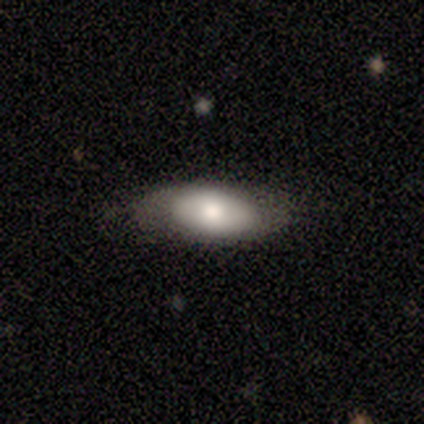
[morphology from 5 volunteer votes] Q: Smooth or featured?
A: smooth (80%); runner-up: featured or disk (20%)
Q: How rounded?
A: in between (100%)
Q: Merging?
A: none (80%); runner-up: minor disturbance (20%)